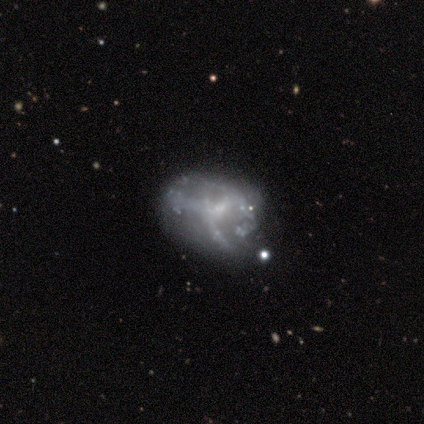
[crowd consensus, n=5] Smooth or featured: featured or disk — 80% (smooth — 20%)
Edge-on disk: no — 100%
Bar: weak — 50% (tied with no — 50%)
Spiral arms: yes — 50% (tied with no — 50%)
Spiral winding: medium — 50% (tied with loose — 50%)
Spiral arm count: 2 — 50% (tied with 3 — 50%)
Bulge size: small — 75% (none — 25%)
Merging: major disturbance — 60% (none — 20%)